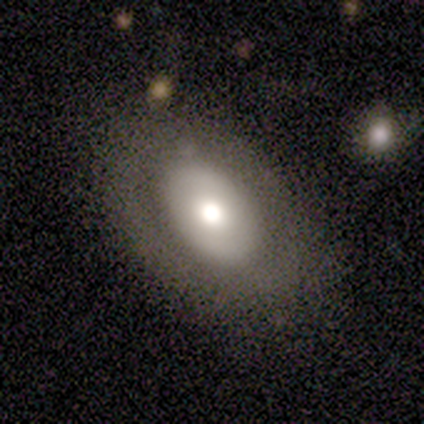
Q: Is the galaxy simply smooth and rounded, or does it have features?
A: featured or disk — 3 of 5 (60%).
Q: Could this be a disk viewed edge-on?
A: no — 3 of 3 (100%).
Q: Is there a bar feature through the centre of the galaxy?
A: no — 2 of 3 (67%).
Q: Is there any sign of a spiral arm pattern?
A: no — 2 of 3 (67%).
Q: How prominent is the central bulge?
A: moderate — 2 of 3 (67%).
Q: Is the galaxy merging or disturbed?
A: none — 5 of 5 (100%).